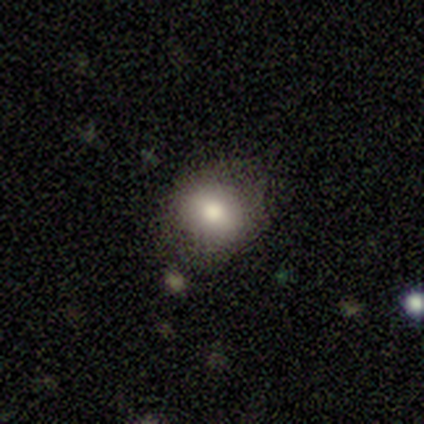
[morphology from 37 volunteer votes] This appears to be a smooth galaxy with no disk features (70%) that is round (69%). Merging: none (70%).